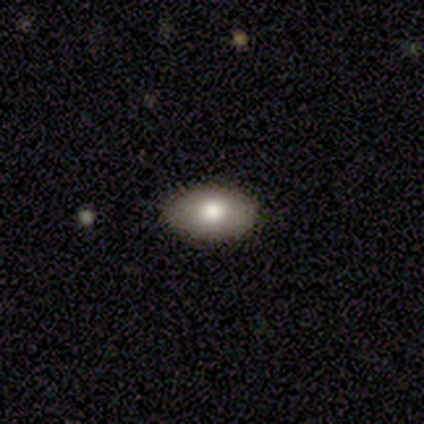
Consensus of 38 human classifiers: This is likely a smooth galaxy (74%). How rounded: clearly in between (93%). Merging: clearly none (97%).